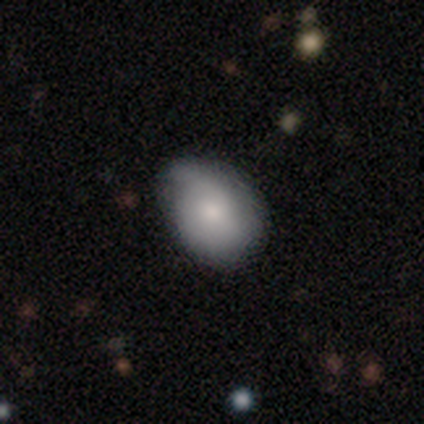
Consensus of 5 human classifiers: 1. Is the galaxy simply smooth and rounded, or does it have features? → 80% smooth, 20% featured or disk, 0% star or artifact.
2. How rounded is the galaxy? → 50% round (tied), 50% in between (tied), 0% cigar-shaped.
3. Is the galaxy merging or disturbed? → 40% none (tied), 40% minor disturbance (tied), 20% merger, 0% major disturbance.